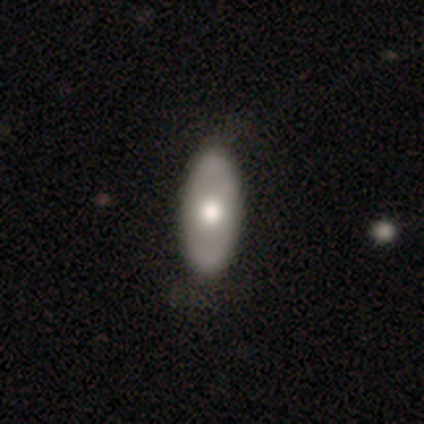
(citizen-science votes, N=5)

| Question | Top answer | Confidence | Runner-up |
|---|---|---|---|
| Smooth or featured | smooth | 80% | featured or disk (20%) |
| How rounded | in between | 100% | — |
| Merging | none | 100% | — |